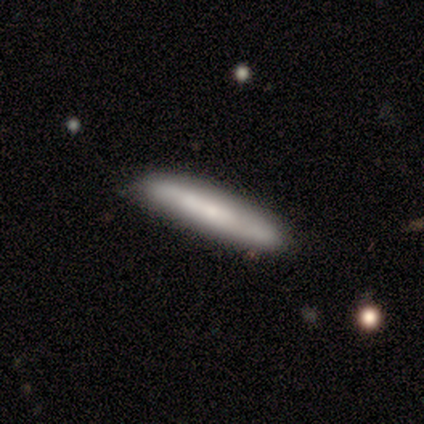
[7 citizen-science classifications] Smooth or featured: smooth — 100%
How rounded: cigar-shaped — 86% (in between — 14%)
Merging: none — 57% (minor disturbance — 43%)